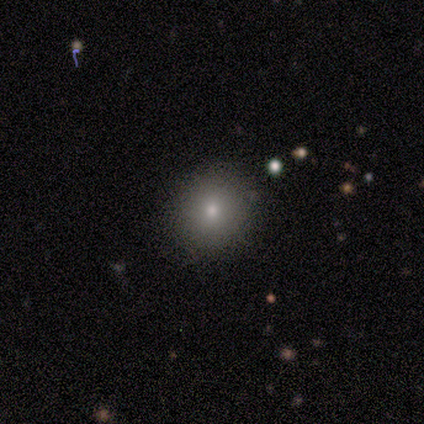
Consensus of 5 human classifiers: smooth-or-featured: smooth: 60% | featured or disk: 20% | star or artifact: 20%
  how-rounded: round: 100% | in between: 0% | cigar-shaped: 0%
  merging: none: 100% | minor disturbance: 0% | major disturbance: 0% | merger: 0%